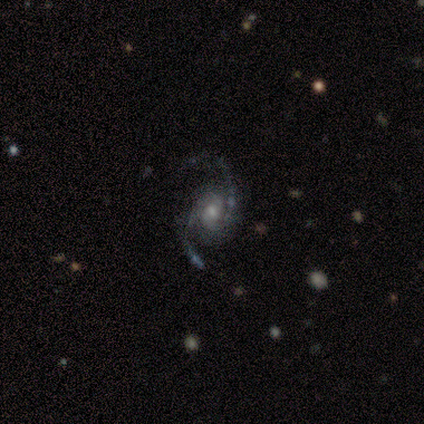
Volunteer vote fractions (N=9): A featured or disk galaxy (100%) with no bar (56%), 2 (100%) loose (67%) spiral arms (100%) and a small central bulge (44%).

Vote fractions:
- Smooth or featured? featured or disk: 100% / smooth: 0% / star or artifact: 0%
- Edge-on disk? no: 100% / yes: 0%
- Bar? no: 56% / weak: 33% / strong: 11%
- Spiral arms? yes: 100% / no: 0%
- Spiral winding? loose: 67% / medium: 22% / tight: 11%
- Spiral arm count? 2: 100% / 1: 0% / 3: 0% / 4: 0% / more than 4: 0% / can't tell: 0%
- Bulge size? small: 44% / moderate: 33% / large: 11% / none: 11% / dominant: 0%
- Merging? none: 78% / minor disturbance: 22% / major disturbance: 0% / merger: 0%